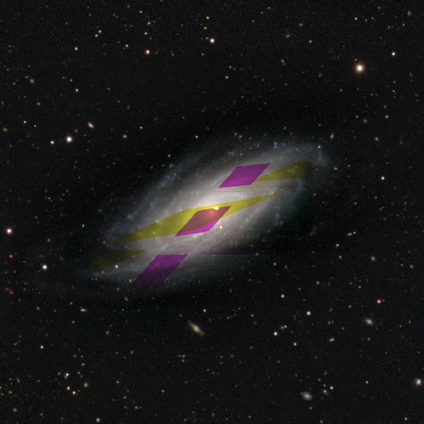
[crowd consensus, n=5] star or artifact 60%, featured or disk 40%, smooth 0%.